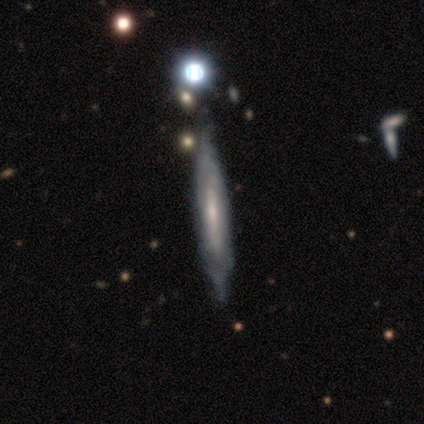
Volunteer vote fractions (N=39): Smooth or featured?
  - featured or disk: 72% *
  - smooth: 26%
  - star or artifact: 3%
Edge-on disk?
  - yes: 75% *
  - no: 25%
Edge-on bulge?
  - boxy: 33% * (tied)
  - none: 33% * (tied)
  - rounded: 33% * (tied)
Merging?
  - none: 34% *
  - minor disturbance: 21%
  - major disturbance: 11%
  - merger: 0%